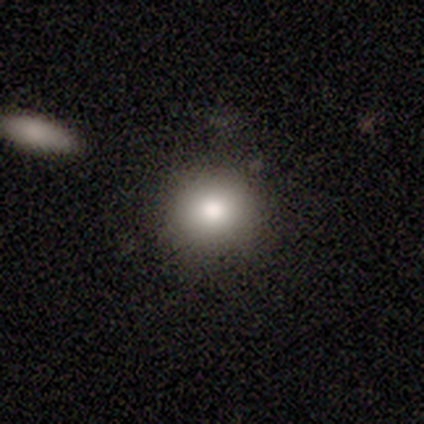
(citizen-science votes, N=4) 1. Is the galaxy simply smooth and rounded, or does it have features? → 100% smooth, 0% featured or disk, 0% star or artifact.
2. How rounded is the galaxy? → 100% round, 0% in between, 0% cigar-shaped.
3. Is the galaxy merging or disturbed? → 100% none, 0% minor disturbance, 0% major disturbance, 0% merger.